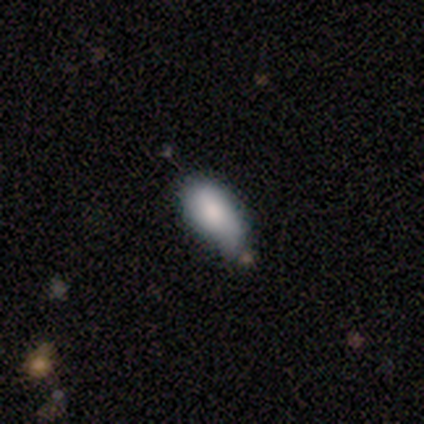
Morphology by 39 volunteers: Smooth or featured?
  - smooth: 82% *
  - featured or disk: 15%
  - star or artifact: 3%
How rounded?
  - in between: 97% *
  - cigar-shaped: 3%
  - round: 0%
Merging?
  - minor disturbance: 47% *
  - none: 39%
  - major disturbance: 8%
  - merger: 5%